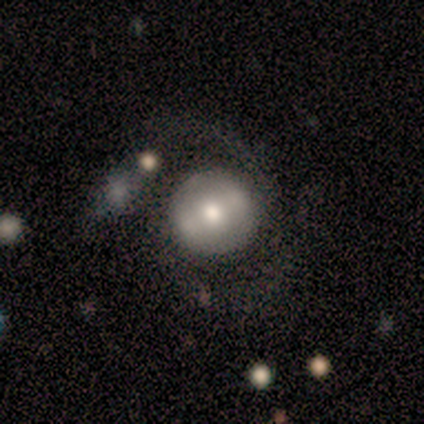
Smooth or featured: featured or disk — 60% (smooth — 40%)
Edge-on disk: no — 100%
Bar: weak — 67% (strong — 33%)
Spiral arms: no — 67% (yes — 33%)
Bulge size: moderate — 100%
Merging: none — 80% (minor disturbance — 20%)